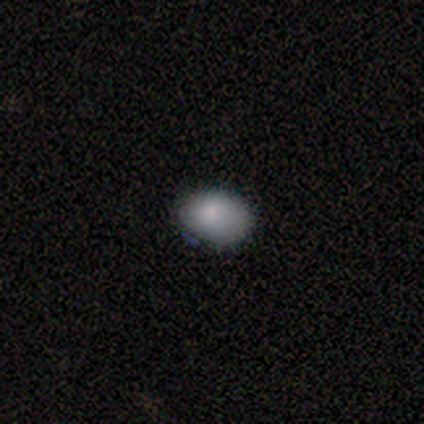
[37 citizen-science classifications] smooth_or_featured: smooth (p=0.95) [alt: featured or disk p=0.05]
how_rounded: in between (p=0.71) [alt: round p=0.29]
merging: none (p=0.59) [alt: minor disturbance p=0.30]